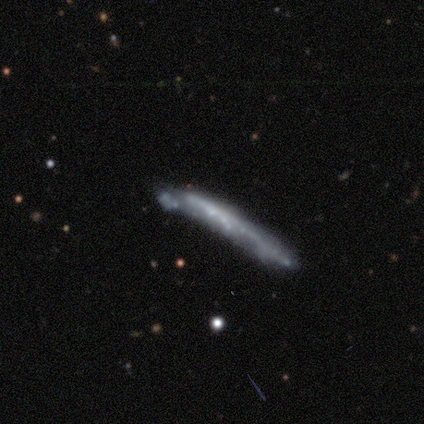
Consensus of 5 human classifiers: smooth 60%, featured or disk 40%, star or artifact 0%. Down the decision tree: how rounded — cigar-shaped (100%); merging — none (40%).